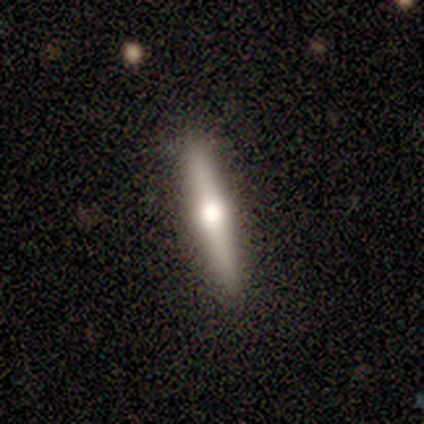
A featured or disk galaxy (56%) viewed edge-on (100%) with a rounded central bulge (100%).

Vote fractions:
- Smooth or featured? featured or disk: 56% / smooth: 33% / star or artifact: 11%
- Edge-on disk? yes: 100% / no: 0%
- Edge-on bulge? rounded: 100% / boxy: 0% / none: 0%
- Merging? none: 100% / minor disturbance: 0% / major disturbance: 0% / merger: 0%